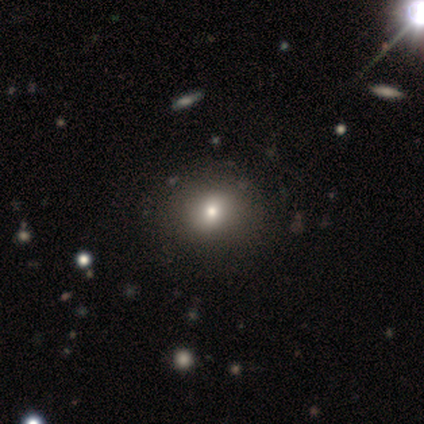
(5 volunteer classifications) Smooth or featured? 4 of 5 (80%) said smooth. How rounded? 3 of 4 (75%) said in between. Merging? 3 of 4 (75%) said none.